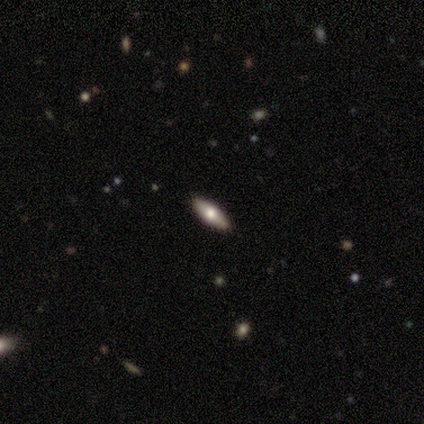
smooth-or-featured: featured or disk: 60% | smooth: 20% | star or artifact: 20%
  disk-edge-on: yes: 100% | no: 0%
    edge-on-bulge: rounded: 100% | boxy: 0% | none: 0%
  merging: none: 100% | minor disturbance: 0% | major disturbance: 0% | merger: 0%